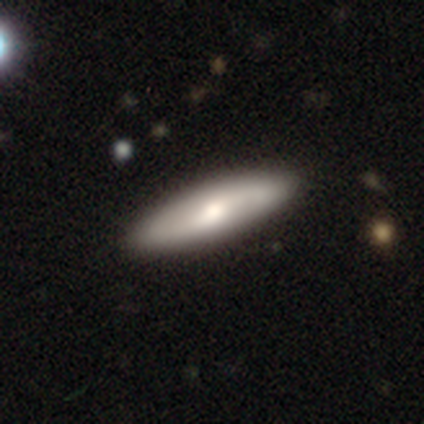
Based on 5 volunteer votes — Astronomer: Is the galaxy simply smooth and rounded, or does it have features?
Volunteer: smooth — 100%.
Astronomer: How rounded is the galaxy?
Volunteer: in between — 80%.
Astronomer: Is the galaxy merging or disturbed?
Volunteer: none — 80%.